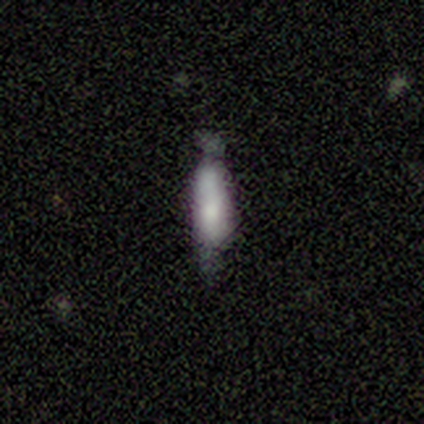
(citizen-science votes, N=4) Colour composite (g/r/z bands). It shows a smooth galaxy with no disk features (75%) that is cigar-shaped (67%). Merging: none (50%, tied with minor disturbance).